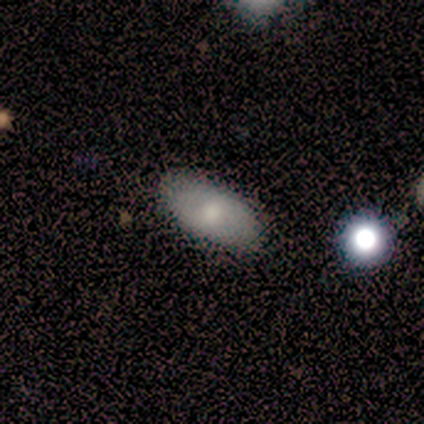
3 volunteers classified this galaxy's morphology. Smooth or featured? smooth (100%)
How rounded? in between (100%)
Merging? none (100%)